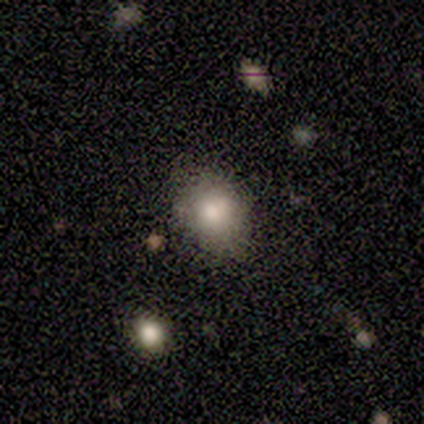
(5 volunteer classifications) Smooth or featured?
  - smooth: 80% *
  - featured or disk: 20%
  - star or artifact: 0%
How rounded?
  - round: 75% *
  - in between: 25%
  - cigar-shaped: 0%
Merging?
  - none: 60% *
  - minor disturbance: 40%
  - major disturbance: 0%
  - merger: 0%